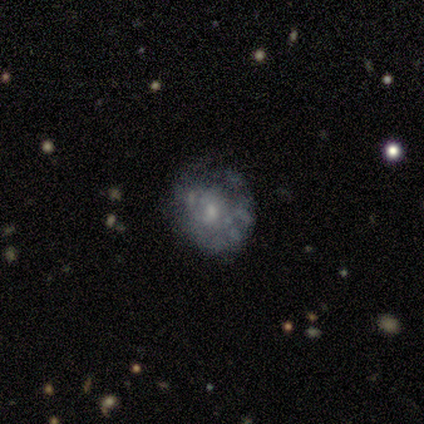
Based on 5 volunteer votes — Smooth or featured? 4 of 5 (80%) said featured or disk. Edge-on disk? 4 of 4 (100%) said no. Bar? 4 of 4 (100%) said no. Spiral arms? 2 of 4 (50%, tied with no) said yes. Spiral winding? 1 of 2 (50%, tied with medium) said tight. Spiral arm count? 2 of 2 (100%) said can't tell. Bulge size? 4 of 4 (100%) said small. Merging? 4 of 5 (80%) said minor disturbance.